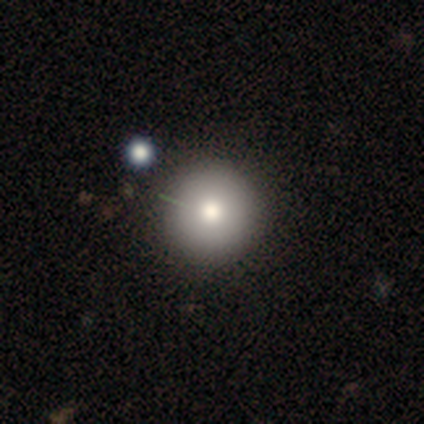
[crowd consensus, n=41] Smooth or featured?
  - smooth: 80% *
  - featured or disk: 10%
  - star or artifact: 10%
How rounded?
  - round: 97% *
  - in between: 3%
  - cigar-shaped: 0%
Merging?
  - none: 51% *
  - merger: 8%
  - major disturbance: 5%
  - minor disturbance: 3%